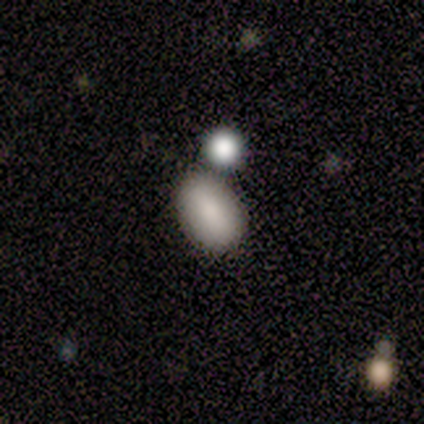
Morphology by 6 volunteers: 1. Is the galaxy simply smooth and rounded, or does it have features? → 100% smooth, 0% featured or disk, 0% star or artifact.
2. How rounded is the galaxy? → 100% in between, 0% round, 0% cigar-shaped.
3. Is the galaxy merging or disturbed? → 83% none, 17% minor disturbance, 0% major disturbance, 0% merger.